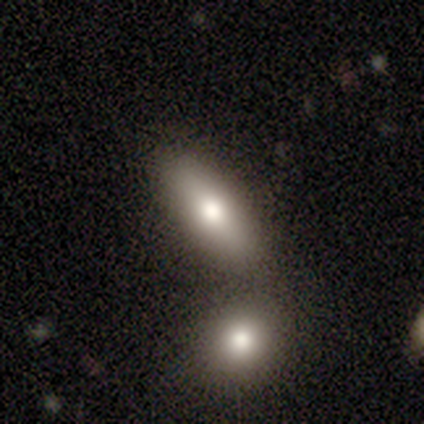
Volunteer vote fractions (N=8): Overall: smooth (88%). How rounded: in between (71%). Merging: none (50%; merger 38%).